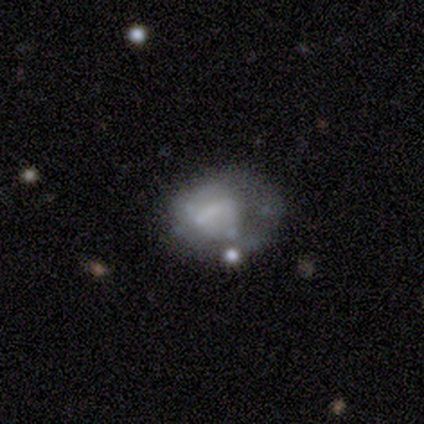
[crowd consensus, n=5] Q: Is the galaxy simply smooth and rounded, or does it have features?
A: featured or disk — 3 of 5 (60%).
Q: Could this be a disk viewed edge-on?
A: no — 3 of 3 (100%).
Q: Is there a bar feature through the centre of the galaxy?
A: no — 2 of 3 (67%).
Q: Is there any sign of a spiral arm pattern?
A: no — 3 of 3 (100%).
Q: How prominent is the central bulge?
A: moderate — 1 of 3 (33%, tied with small and none).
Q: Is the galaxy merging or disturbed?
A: none — 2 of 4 (50%).